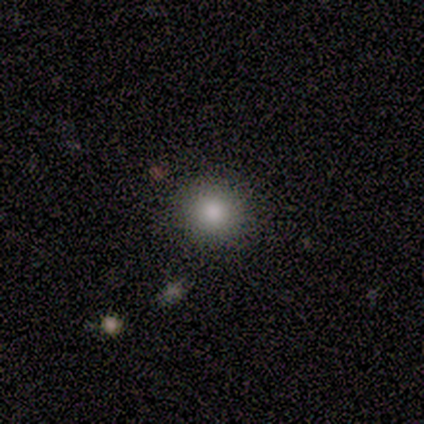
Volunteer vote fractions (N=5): smooth 60%, featured or disk 20%, star or artifact 20%. Down the decision tree: how rounded — round (100%); merging — none (100%).